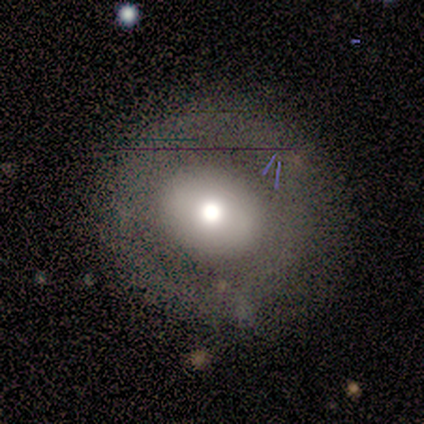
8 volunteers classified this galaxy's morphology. smooth 88%, featured or disk 12%, star or artifact 0%. Down the decision tree: how rounded — round (100%); merging — none (100%).